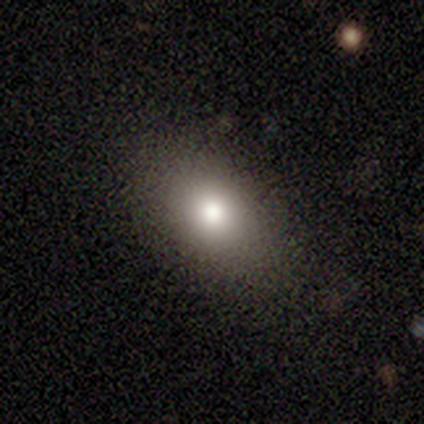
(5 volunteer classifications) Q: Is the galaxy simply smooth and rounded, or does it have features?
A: smooth — 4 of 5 (80%).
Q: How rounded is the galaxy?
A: in between — 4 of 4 (100%).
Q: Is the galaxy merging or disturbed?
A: none — 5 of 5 (100%).